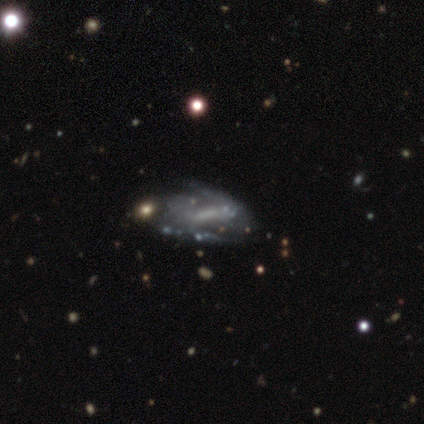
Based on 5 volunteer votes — A featured or disk galaxy (80%) with a weak bar (50%), 2 (75%) loose (50%) spiral arms (100%) and a small central bulge (50%, tied with none).

Vote fractions:
- Smooth or featured? featured or disk: 80% / smooth: 20% / star or artifact: 0%
- Edge-on disk? no: 100% / yes: 0%
- Bar? weak: 50% / strong: 25% / no: 25%
- Spiral arms? yes: 100% / no: 0%
- Spiral winding? loose: 50% / tight: 25% / medium: 25%
- Spiral arm count? 2: 75% / can't tell: 25% / 1: 0% / 3: 0% / 4: 0% / more than 4: 0%
- Bulge size? small: 50% (tied) / none: 50% (tied) / dominant: 0% / large: 0% / moderate: 0%
- Merging? minor disturbance: 40% / none: 20% / major disturbance: 20% / merger: 20%